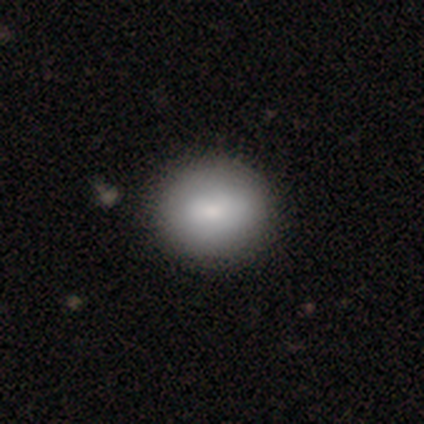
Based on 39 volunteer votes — smooth_or_featured: smooth (p=0.79) [alt: featured or disk p=0.15]
how_rounded: round (p=0.68) [alt: in between p=0.32]
merging: none (p=0.73) [alt: minor disturbance p=0.03]